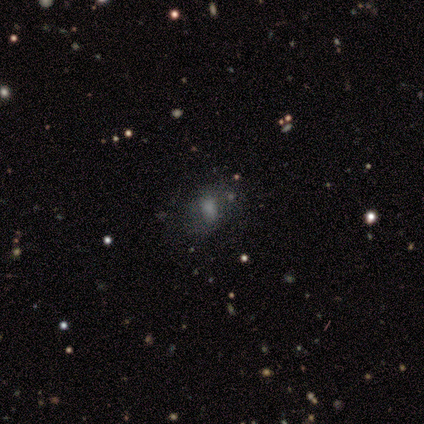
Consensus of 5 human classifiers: Smooth or featured: smooth — 80% (star or artifact — 20%)
How rounded: in between — 75% (round — 25%)
Merging: none — 75% (minor disturbance — 25%)